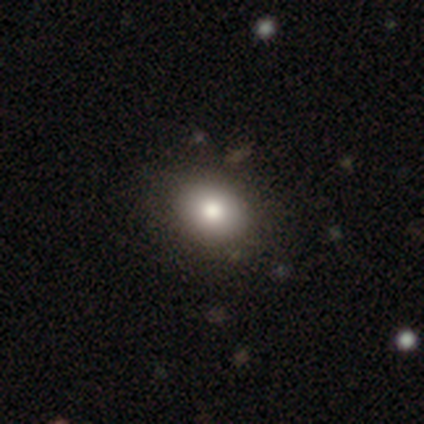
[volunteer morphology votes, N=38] smooth 82%, featured or disk 13%, star or artifact 5%. Down the decision tree: how rounded — in between (84%); merging — none (58%).